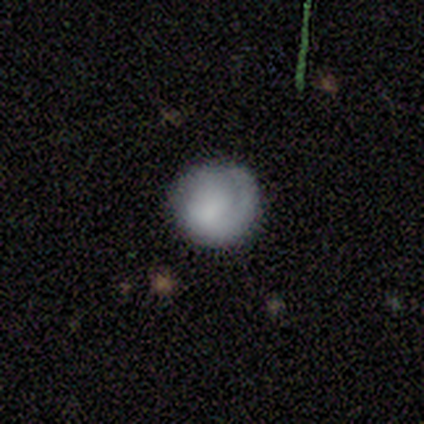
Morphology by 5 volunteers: Smooth or featured: smooth — 40% (tied with featured or disk — 40%)
How rounded: round — 50% (tied with in between — 50%)
Merging: none — 50% (minor disturbance — 25%)